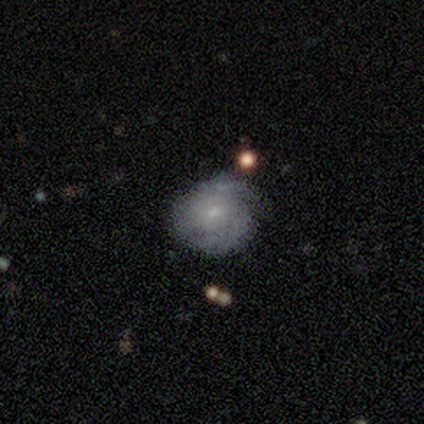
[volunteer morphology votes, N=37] Volunteers were most divided on "smooth or featured": featured or disk: 54%, smooth: 46%, star or artifact: 0%. More confident: edge-on disk — no (95%); bulge size — small (95%); spiral winding — tight (73%); bar — no (68%); spiral arm count — can't tell (64%); merging — none (62%); spiral arms — yes (58%).